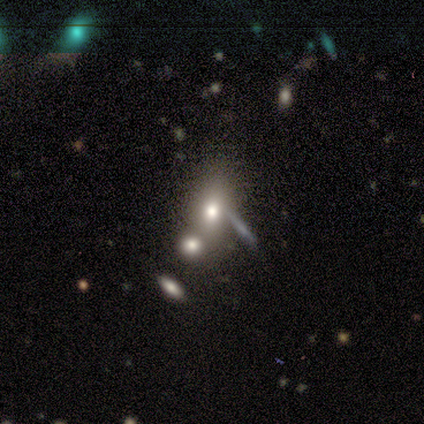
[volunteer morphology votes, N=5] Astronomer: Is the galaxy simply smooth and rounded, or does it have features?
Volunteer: smooth — 80%.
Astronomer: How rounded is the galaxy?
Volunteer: in between — 75%.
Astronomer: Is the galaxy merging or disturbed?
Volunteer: none — 75%.